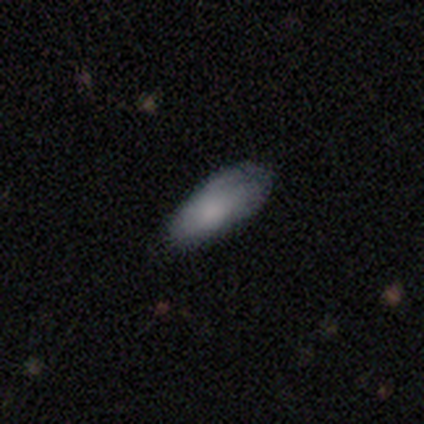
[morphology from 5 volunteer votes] Smooth or featured?
  - smooth: 80% *
  - featured or disk: 20%
  - star or artifact: 0%
How rounded?
  - in between: 100% *
  - round: 0%
  - cigar-shaped: 0%
Merging?
  - none: 80% *
  - minor disturbance: 20%
  - major disturbance: 0%
  - merger: 0%